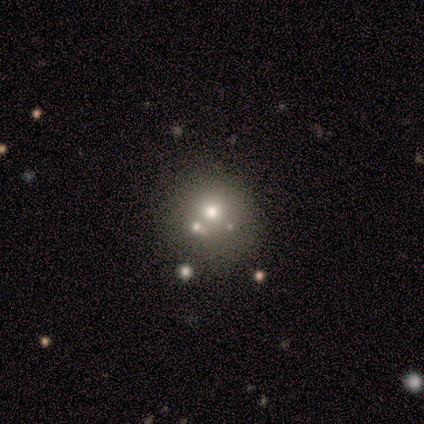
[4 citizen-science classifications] Smooth or featured: star or artifact — 50% (smooth — 25%)